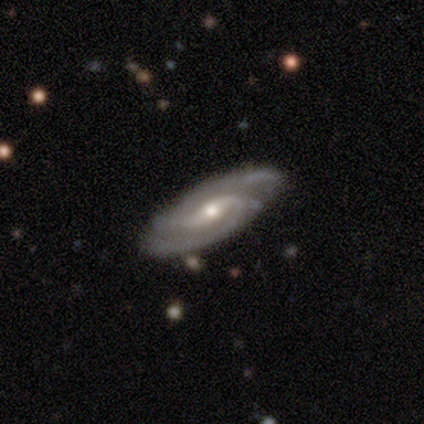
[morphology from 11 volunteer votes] Overall: featured or disk (100%). Edge-on disk: no (100%). Bar: weak (64%; strong 27%). Spiral arms: yes (100%). Spiral arm count: 2 (100%). Spiral winding: tight (45%, tied with medium). Bulge size: moderate (73%). Merging: none (82%).